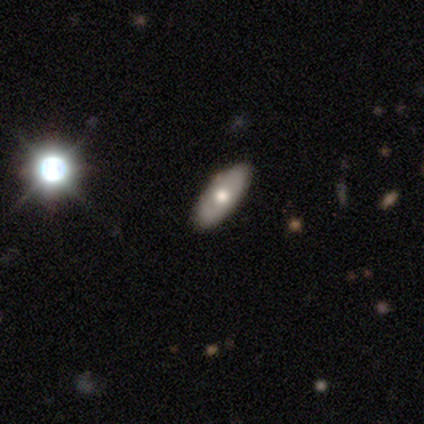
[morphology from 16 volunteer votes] smooth 50%, featured or disk 31%, star or artifact 19%. Down the decision tree: how rounded — in between (88%); merging — none (100%).